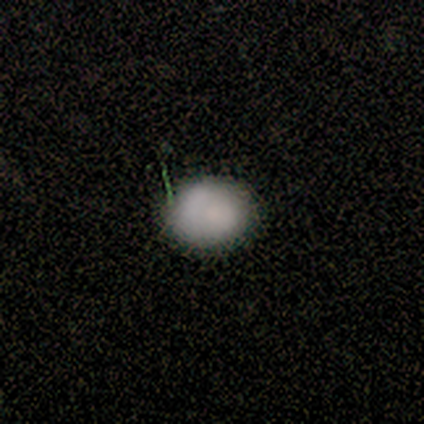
This is clearly a smooth galaxy (100%). How rounded: clearly round (100%). Merging: clearly none (80%).